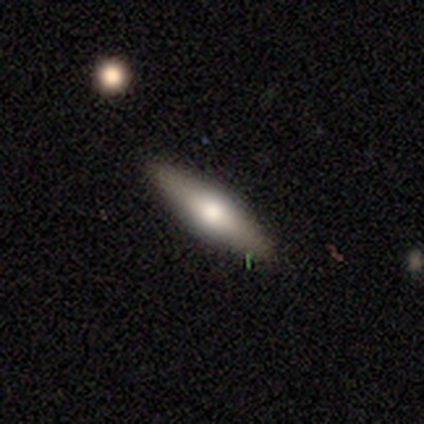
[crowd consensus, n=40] Smooth or featured? 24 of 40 (60%) said smooth. How rounded? 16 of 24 (67%) said cigar-shaped. Merging? 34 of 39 (87%) said none.